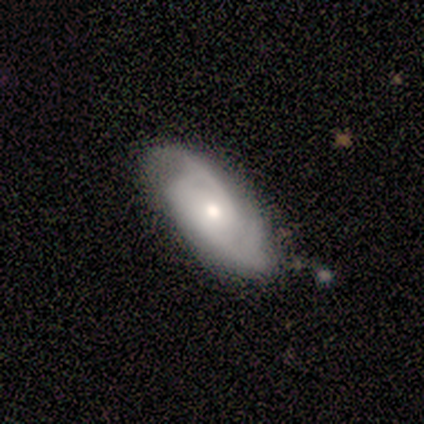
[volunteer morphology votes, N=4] Smooth or featured?
  - featured or disk: 75% *
  - smooth: 25%
  - star or artifact: 0%
Edge-on disk?
  - no: 100% *
  - yes: 0%
Bar?
  - no: 100% *
  - strong: 0%
  - weak: 0%
Spiral arms?
  - yes: 100% *
  - no: 0%
Spiral winding?
  - medium: 67% *
  - loose: 33%
  - tight: 0%
Spiral arm count?
  - 2: 33% * (tied)
  - 3: 33% * (tied)
  - can't tell: 33% * (tied)
  - 1: 0%
  - 4: 0%
  - more than 4: 0%
Bulge size?
  - dominant: 33% * (tied)
  - moderate: 33% * (tied)
  - small: 33% * (tied)
  - large: 0%
  - none: 0%
Merging?
  - none: 75% *
  - minor disturbance: 25%
  - major disturbance: 0%
  - merger: 0%